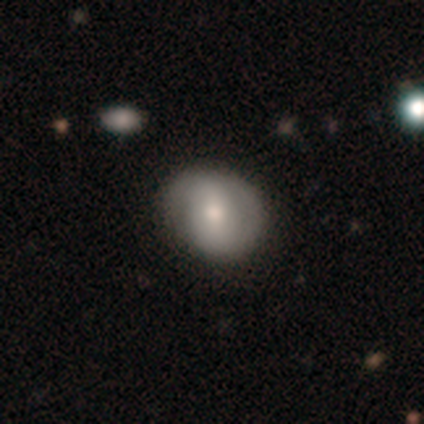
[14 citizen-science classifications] smooth 57%, featured or disk 36%, star or artifact 7%. Down the decision tree: how rounded — round (75%); merging — none (62%).